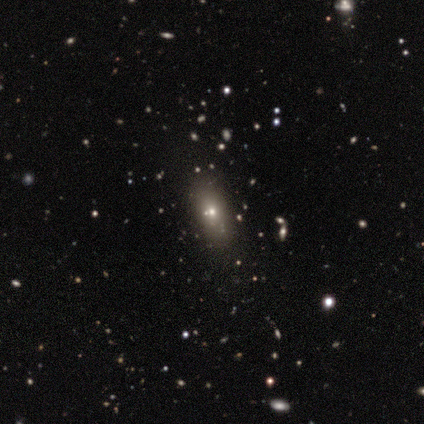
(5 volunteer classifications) This is clearly a smooth galaxy (80%). How rounded: likely in between (75%). Merging: clearly none (80%).